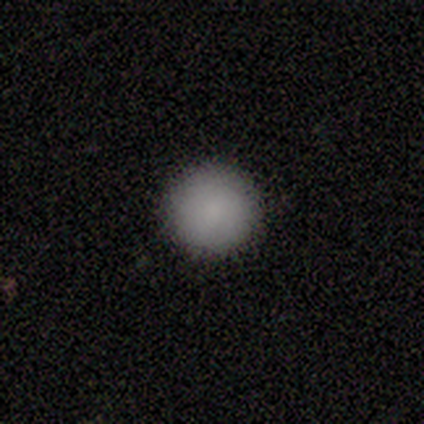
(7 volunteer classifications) Morphology: type=smooth (100%); roundness=round (100%); merging=none (100%).